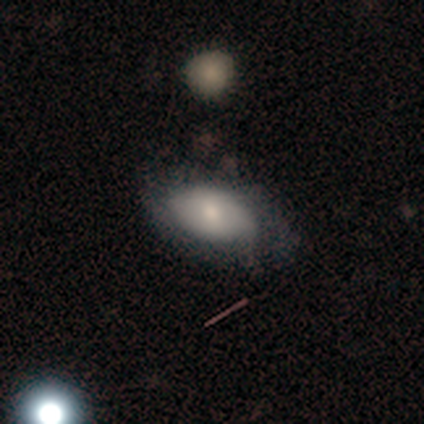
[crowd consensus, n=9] smooth-or-featured: smooth: 100% | featured or disk: 0% | star or artifact: 0%
  how-rounded: in between: 89% | round: 11% | cigar-shaped: 0%
  merging: none: 56% | minor disturbance: 44% | major disturbance: 0% | merger: 0%